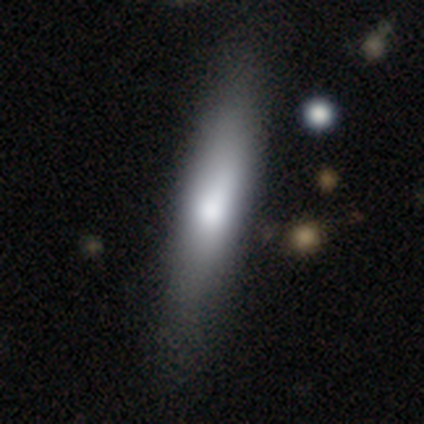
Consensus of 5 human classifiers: smooth 80%, featured or disk 20%, star or artifact 0%. Down the decision tree: how rounded — cigar-shaped (75%); merging — none (100%).